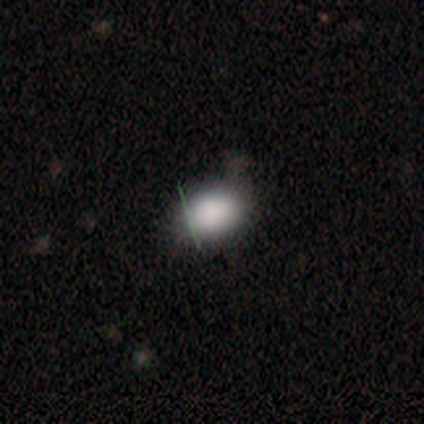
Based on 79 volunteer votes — This is clearly a smooth galaxy (85%). How rounded: likely in between (78%). Merging: marginally none (38%).